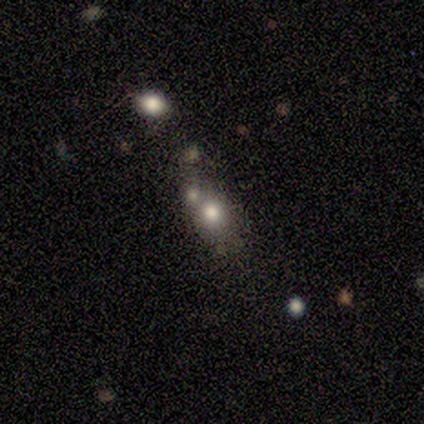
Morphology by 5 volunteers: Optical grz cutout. It shows a smooth galaxy with no disk features (40%, tied with star or artifact) that is in between round and cigar-shaped (100%). Merging: none (67%).